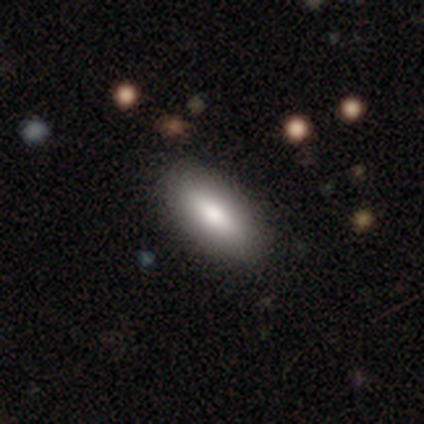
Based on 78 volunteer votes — A smooth galaxy with no disk features (86%) that is in between round and cigar-shaped (82%). Merging: none (43%).